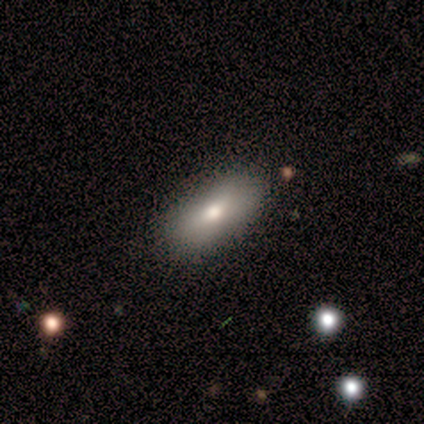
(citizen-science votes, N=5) Overall: smooth (40%, tied with featured or disk). How rounded: in between (100%). Merging: none (75%).